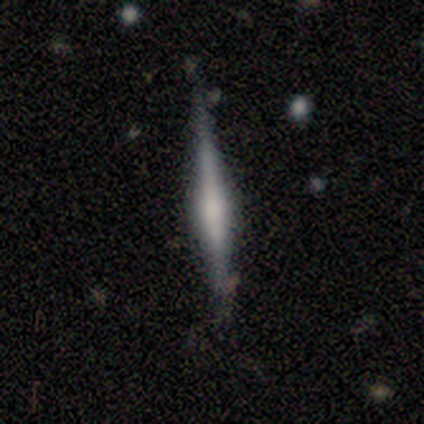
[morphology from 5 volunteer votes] A featured or disk galaxy (60%) viewed edge-on (100%) with a rounded central bulge (100%).

Vote fractions:
- Smooth or featured? featured or disk: 60% / smooth: 40% / star or artifact: 0%
- Edge-on disk? yes: 100% / no: 0%
- Edge-on bulge? rounded: 100% / boxy: 0% / none: 0%
- Merging? none: 100% / minor disturbance: 0% / major disturbance: 0% / merger: 0%